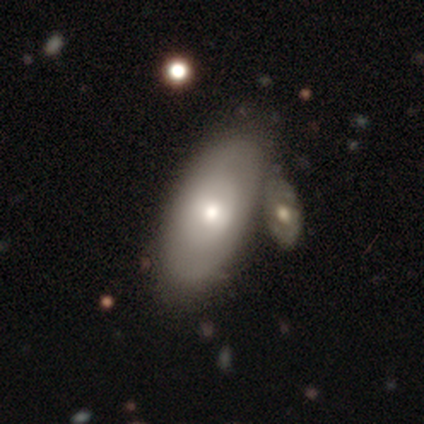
featured or disk 75%, smooth 25%, star or artifact 0%. Down the decision tree: edge-on disk — no (67%); bar — no (100%); spiral arms — no (100%); bulge size — small (50%, tied with none); merging — none (50%).